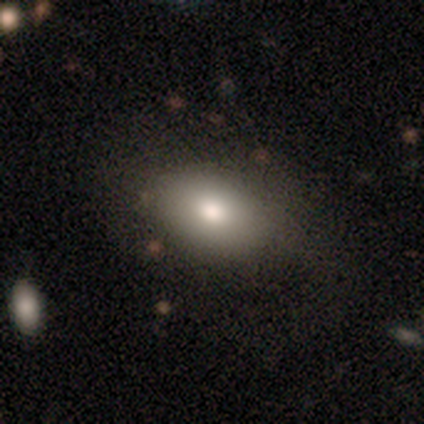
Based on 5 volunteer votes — Q: Smooth or featured?
A: smooth (60%); runner-up: star or artifact (40%)
Q: How rounded?
A: in between (100%)
Q: Merging?
A: none (67%); runner-up: minor disturbance (33%)